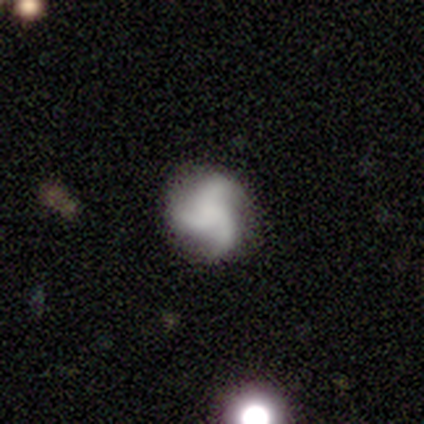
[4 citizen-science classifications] Morphology: type=featured or disk (75%); edge-on=no (100%); bar=no (67%); spiral arms=yes (67%); winding=tight (50%, tied with loose); arm count=3 (100%); bulge=none (100%); merging=none (100%).